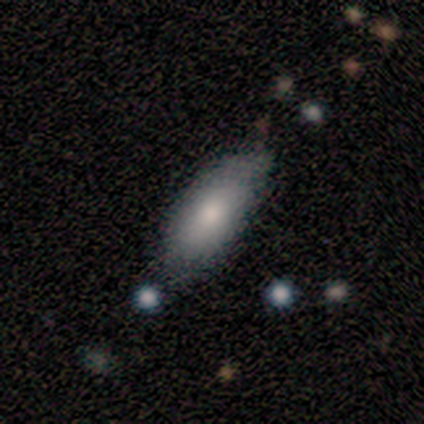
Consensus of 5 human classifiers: A smooth galaxy with no disk features (60%) that is in between round and cigar-shaped (100%). Merging: none (75%).